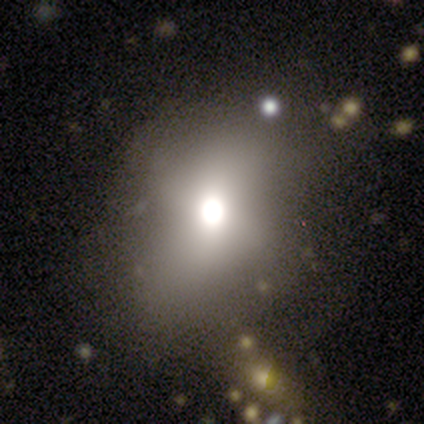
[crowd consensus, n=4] Volunteers were most divided on "merging": minor disturbance: 50%, none: 25%, major disturbance: 25%, merger: 0%. More confident: smooth or featured — smooth (75%); how rounded — in between (67%).